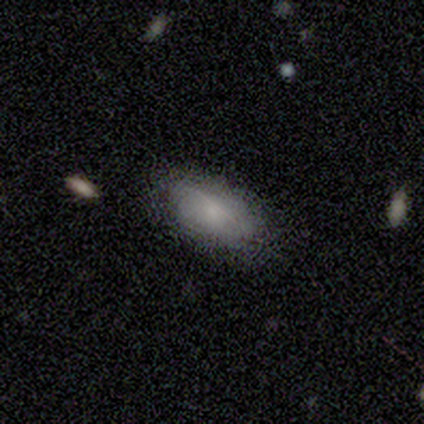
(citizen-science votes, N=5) A smooth galaxy with no disk features (100%) that is in between round and cigar-shaped (100%).

Vote fractions:
- Smooth or featured? smooth: 100% / featured or disk: 0% / star or artifact: 0%
- How rounded? in between: 100% / round: 0% / cigar-shaped: 0%
- Merging? none: 100% / minor disturbance: 0% / major disturbance: 0% / merger: 0%